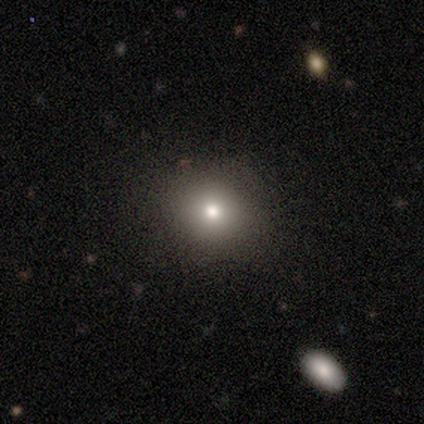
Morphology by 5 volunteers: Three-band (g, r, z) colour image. It shows a smooth galaxy with no disk features (40%, tied with star or artifact) that is round (50%, tied with in between). Merging: none (67%).